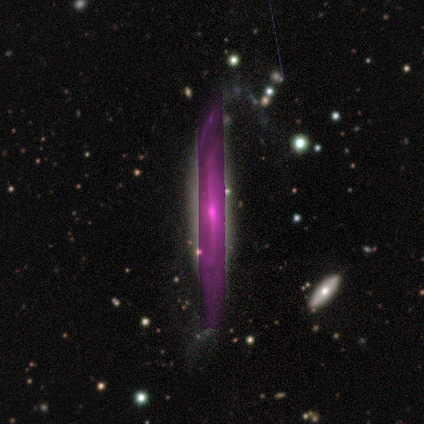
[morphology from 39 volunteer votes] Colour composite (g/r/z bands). It shows a featured or disk galaxy (49%) viewed edge-on (95%) with a rounded central bulge (78%). Merging: none (67%).